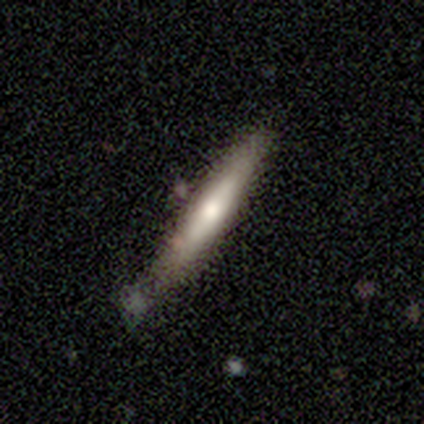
Smooth or featured? 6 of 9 (67%) said smooth. How rounded? 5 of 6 (83%) said cigar-shaped. Merging? 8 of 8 (100%) said none.